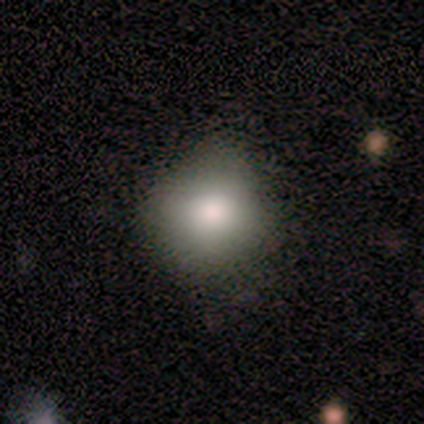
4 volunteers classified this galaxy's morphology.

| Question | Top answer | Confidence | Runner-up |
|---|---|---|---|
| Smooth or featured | smooth | 50% | tied: featured or disk (50%) |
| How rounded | round | 100% | — |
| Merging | none | 75% | minor disturbance (25%) |